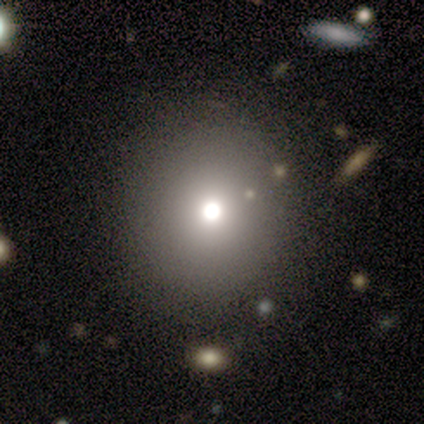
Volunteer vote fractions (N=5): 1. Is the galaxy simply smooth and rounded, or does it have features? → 80% smooth, 20% star or artifact, 0% featured or disk.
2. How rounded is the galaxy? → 100% round, 0% in between, 0% cigar-shaped.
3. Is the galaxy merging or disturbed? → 100% none, 0% minor disturbance, 0% major disturbance, 0% merger.